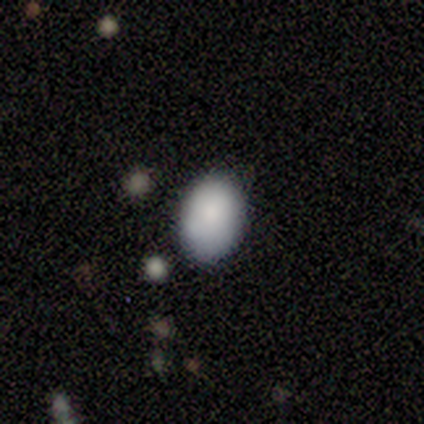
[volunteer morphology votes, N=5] A smooth galaxy with no disk features (100%) that is round (60%). Merging: none (100%).